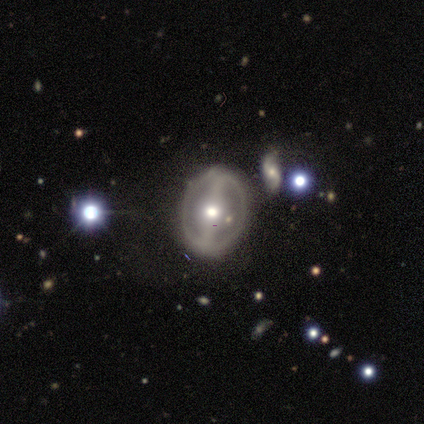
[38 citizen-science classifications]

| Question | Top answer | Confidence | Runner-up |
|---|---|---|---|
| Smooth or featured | featured or disk | 84% | smooth (11%) |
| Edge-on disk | no | 91% | yes (9%) |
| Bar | strong | 76% | no (14%) |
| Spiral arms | no | 59% | yes (41%) |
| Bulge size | moderate | 72% | small (21%) |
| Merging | none | 64% | major disturbance (17%) |